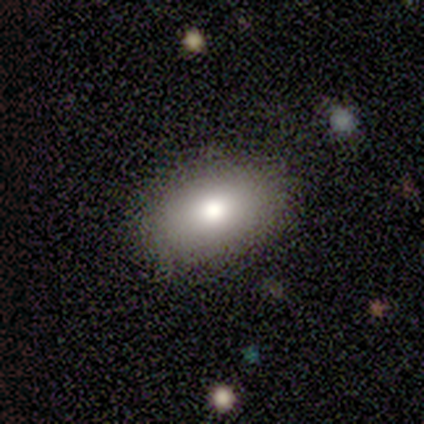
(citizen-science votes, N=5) This is clearly a smooth galaxy (100%). How rounded: clearly in between (100%). Merging: clearly none (100%).